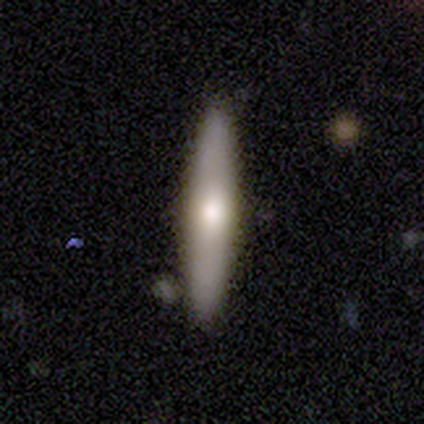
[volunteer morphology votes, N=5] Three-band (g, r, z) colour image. It shows a smooth galaxy with no disk features (80%) that is cigar-shaped (100%). Merging: none (100%).